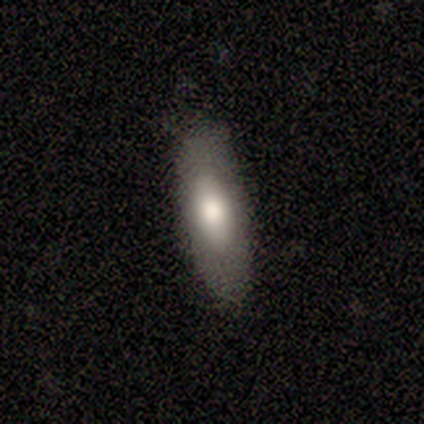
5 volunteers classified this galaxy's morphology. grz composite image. It shows a smooth galaxy with no disk features (60%) that is in between round and cigar-shaped (100%). Merging: none (100%).